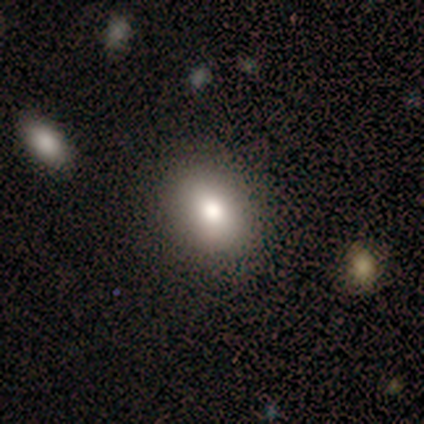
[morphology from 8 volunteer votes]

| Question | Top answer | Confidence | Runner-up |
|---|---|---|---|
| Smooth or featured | smooth | 100% | — |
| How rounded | round | 50% | tied: in between (50%) |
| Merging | none | 75% | minor disturbance (12%) |